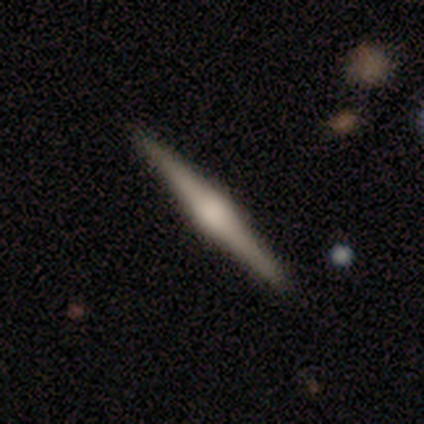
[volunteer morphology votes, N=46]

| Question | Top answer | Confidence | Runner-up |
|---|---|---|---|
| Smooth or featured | featured or disk | 80% | smooth (15%) |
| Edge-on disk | yes | 100% | — |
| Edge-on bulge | rounded | 86% | boxy (8%) |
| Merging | none | 93% | minor disturbance (5%) |